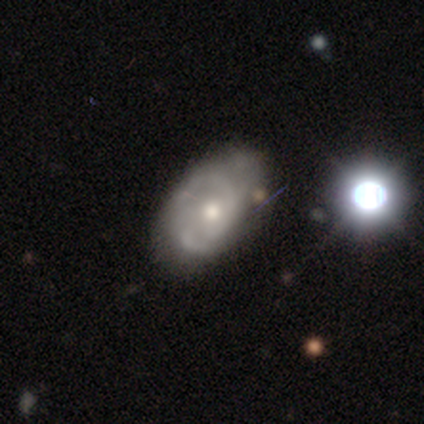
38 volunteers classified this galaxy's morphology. type=featured or disk (76%); edge-on=no (97%); bar=no (93%); spiral arms=yes (68%); winding=tight (42%, tied with medium); arm count=2 (47%); bulge=moderate (61%); merging=none (37%).